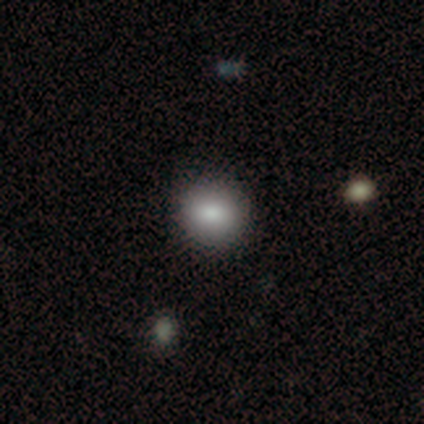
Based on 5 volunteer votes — Morphology: type=smooth (60%); roundness=round (100%); merging=none (100%).